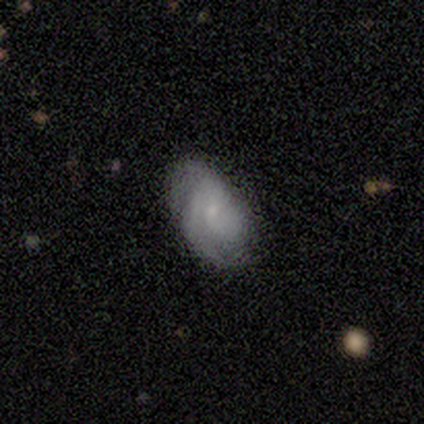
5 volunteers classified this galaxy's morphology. This is clearly a featured or disk galaxy (80%). It is likely not viewed edge-on (75%). Bar: likely no (67%). Spiral arm pattern: clearly yes (100%). Spiral arm count: marginally 3 (33%, tied with 4 and can't tell). Spiral winding: clearly tight (100%). Central bulge: clearly small (100%). Merging: marginally none (40%, tied with minor disturbance).